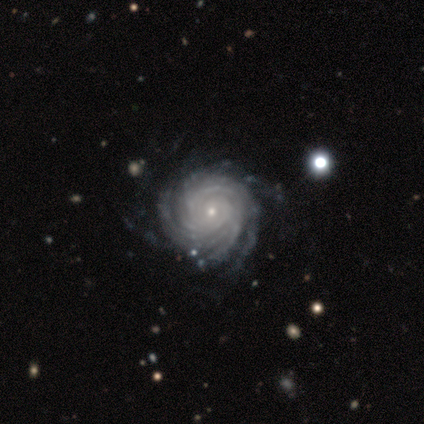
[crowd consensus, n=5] Smooth or featured?
  - featured or disk: 100% *
  - smooth: 0%
  - star or artifact: 0%
Edge-on disk?
  - no: 100% *
  - yes: 0%
Bar?
  - no: 80% *
  - strong: 20%
  - weak: 0%
Spiral arms?
  - yes: 100% *
  - no: 0%
Spiral winding?
  - tight: 60% *
  - medium: 20%
  - loose: 20%
Spiral arm count?
  - 4: 40% * (tied)
  - more than 4: 40% * (tied)
  - can't tell: 20%
  - 1: 0%
  - 2: 0%
  - 3: 0%
Bulge size?
  - small: 80% *
  - moderate: 20%
  - dominant: 0%
  - large: 0%
  - none: 0%
Merging?
  - none: 60% *
  - minor disturbance: 20%
  - major disturbance: 20%
  - merger: 0%